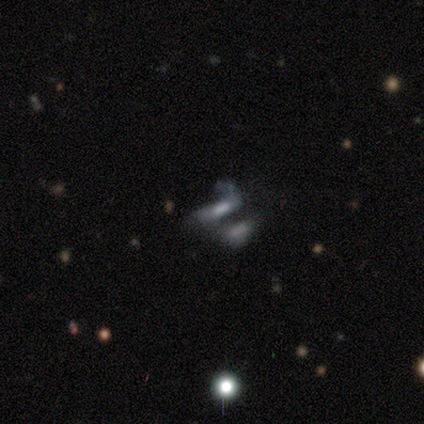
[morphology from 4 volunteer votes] smooth 75%, star or artifact 25%, featured or disk 0%. Down the decision tree: how rounded — in between (67%); merging — none (33%, tied with major disturbance and merger).